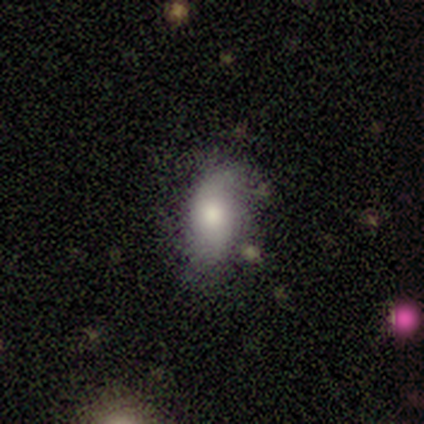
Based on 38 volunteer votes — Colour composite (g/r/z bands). It shows a smooth galaxy with no disk features (58%) that is in between round and cigar-shaped (82%). Merging: none (53%).